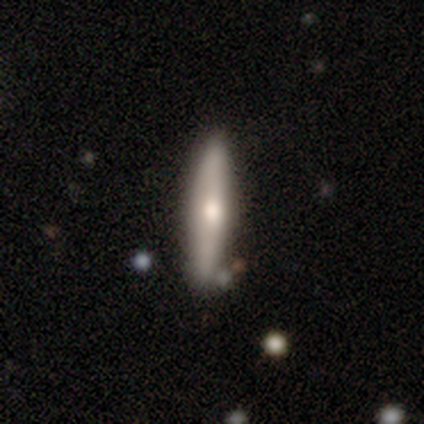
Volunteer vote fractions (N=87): Smooth or featured?
  - smooth: 48% * (tied)
  - featured or disk: 48% * (tied)
  - star or artifact: 3%
How rounded?
  - cigar-shaped: 98% *
  - in between: 2%
  - round: 0%
Merging?
  - none: 81% *
  - minor disturbance: 12%
  - merger: 5%
  - major disturbance: 2%